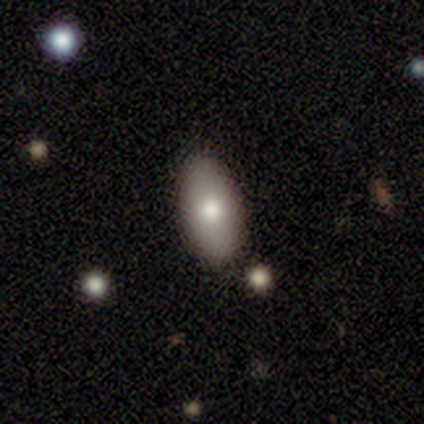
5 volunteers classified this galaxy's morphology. This is clearly a smooth galaxy (100%). How rounded: clearly in between (100%). Merging: clearly none (100%).